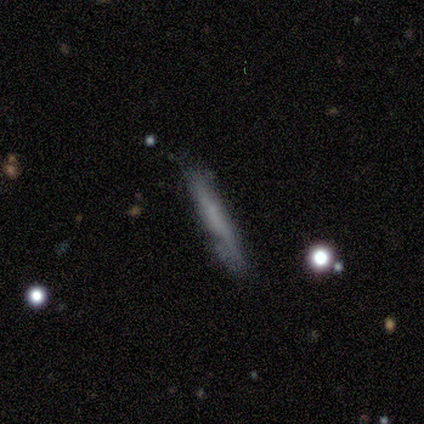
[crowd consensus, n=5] Volunteers were most divided on "smooth or featured": featured or disk: 60%, smooth: 40%, star or artifact: 0%. More confident: edge-on disk — yes (100%); edge-on bulge — none (100%); merging — minor disturbance (80%).